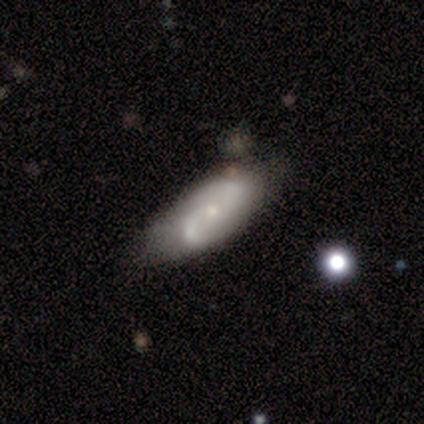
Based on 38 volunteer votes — Morphology: type=featured or disk (71%); edge-on=no (100%); bar=no (70%); spiral arms=yes (85%); winding=medium (52%); arm count=2 (83%); bulge=small (81%); merging=none (67%).